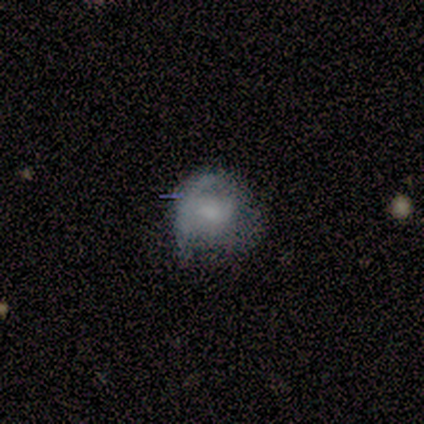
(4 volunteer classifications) This is likely a smooth galaxy (75%). How rounded: likely in between (67%). Merging: likely none (67%).